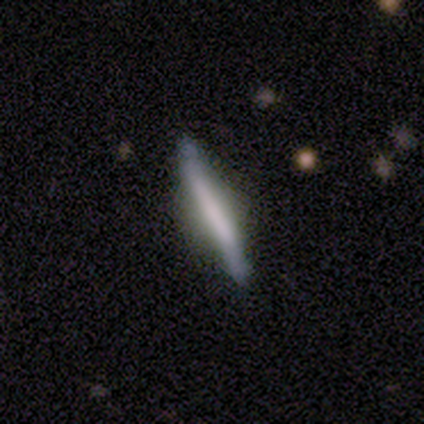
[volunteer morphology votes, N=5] This is likely a smooth galaxy (60%). How rounded: clearly cigar-shaped (100%). Merging: clearly none (80%).